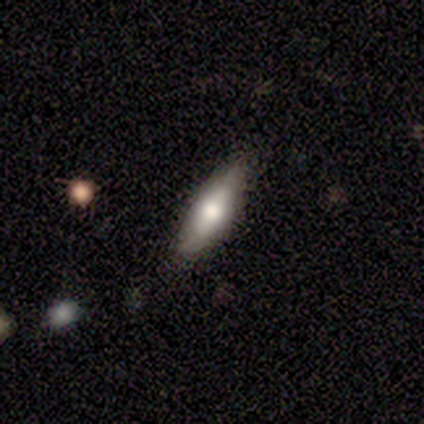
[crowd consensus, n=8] smooth 62%, featured or disk 25%, star or artifact 12%. Down the decision tree: how rounded — cigar-shaped (60%); merging — none (57%).